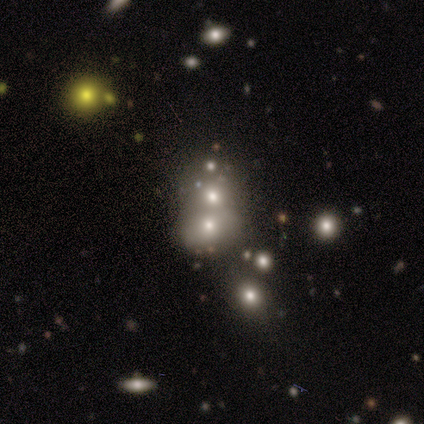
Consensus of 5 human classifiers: This appears to be a smooth galaxy with no disk features (40%, tied with star or artifact) that is round (100%). Merging: none (33%, tied with minor disturbance and merger).